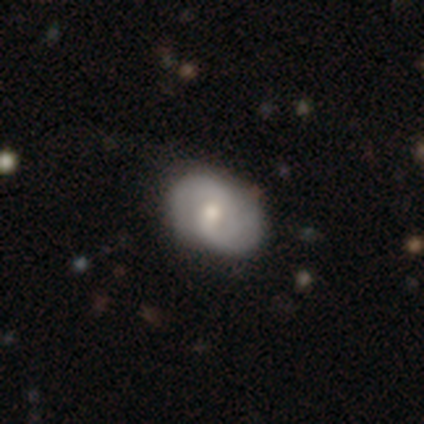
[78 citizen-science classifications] featured or disk 68%, smooth 29%, star or artifact 3%. Down the decision tree: edge-on disk — no (100%); bar — no (45%); spiral arms — yes (96%); spiral arm count — 2 (78%); spiral winding — medium (37%); bulge size — moderate (60%); merging — none (39%).